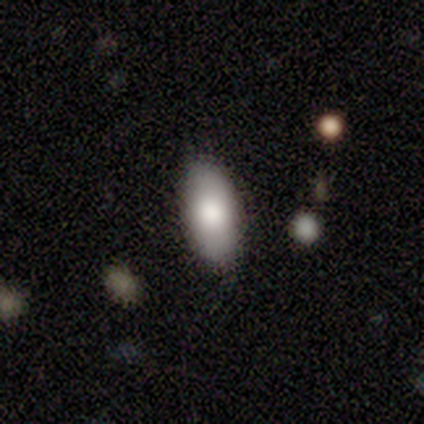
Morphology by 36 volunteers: Overall: smooth (83%). How rounded: in between (100%). Merging: none (82%).